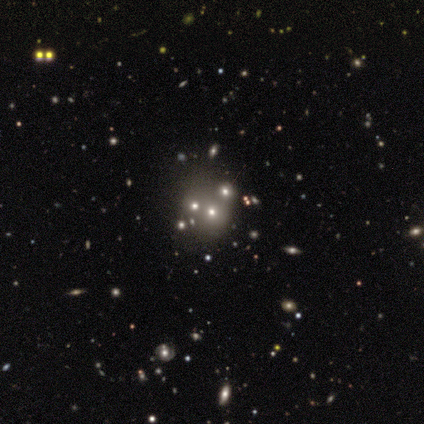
This is likely a smooth galaxy (60%). How rounded: clearly round (100%). Merging: clearly none (100%).